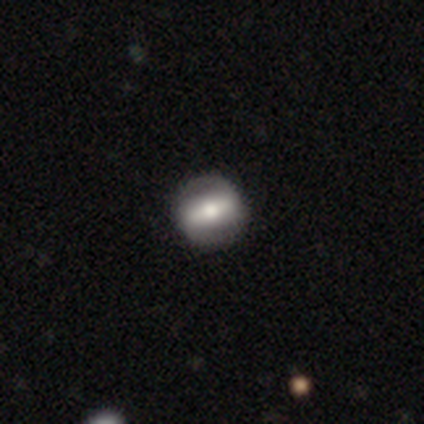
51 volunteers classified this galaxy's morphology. Smooth or featured?
  - featured or disk: 51% *
  - smooth: 41%
  - star or artifact: 8%
Edge-on disk?
  - no: 92% *
  - yes: 8%
Bar?
  - strong: 75% *
  - weak: 21%
  - no: 4%
Spiral arms?
  - yes: 50% * (tied)
  - no: 50% * (tied)
Spiral winding?
  - medium: 58% *
  - tight: 33%
  - loose: 8%
Spiral arm count?
  - 2: 100% *
  - 1: 0%
  - 3: 0%
  - 4: 0%
  - more than 4: 0%
  - can't tell: 0%
Bulge size?
  - moderate: 62% *
  - large: 29%
  - small: 8%
  - dominant: 0%
  - none: 0%
Merging?
  - none: 85% *
  - minor disturbance: 13%
  - merger: 2%
  - major disturbance: 0%